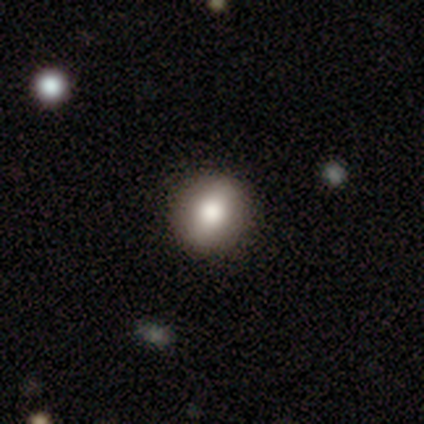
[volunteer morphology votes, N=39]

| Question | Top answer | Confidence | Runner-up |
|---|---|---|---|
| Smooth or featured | smooth | 82% | featured or disk (15%) |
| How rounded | round | 72% | in between (28%) |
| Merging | none | 63% | minor disturbance (3%) |